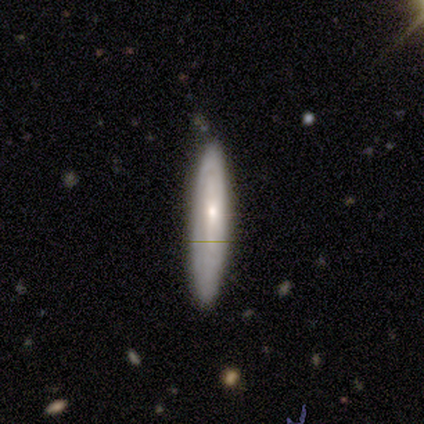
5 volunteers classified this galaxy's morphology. This appears to be a featured or disk galaxy (60%) with a weak bar (67%), no spiral arms (67%) and a small central bulge (100%). Merging: none (50%, tied with minor disturbance).